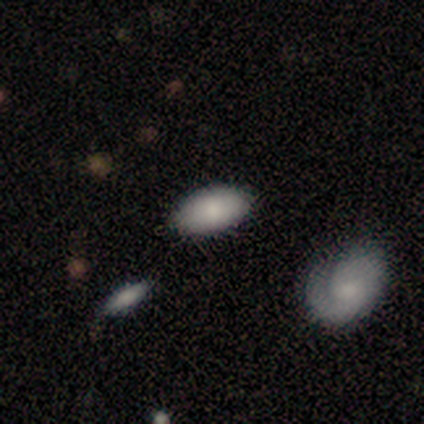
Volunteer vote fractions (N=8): Overall: smooth (100%). How rounded: in between (100%). Merging: none (100%).